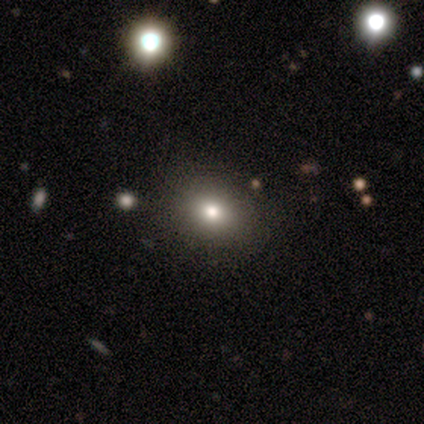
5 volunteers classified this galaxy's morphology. Q: Smooth or featured?
A: smooth (80%); runner-up: star or artifact (20%)
Q: How rounded?
A: round (75%); runner-up: in between (25%)
Q: Merging?
A: none (75%); runner-up: minor disturbance (25%)